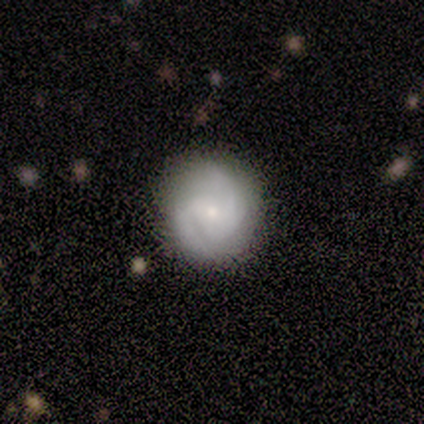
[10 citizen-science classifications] smooth_or_featured: featured or disk (p=0.70) [alt: smooth p=0.30]
disk_edge_on: no (p=1.00)
bar: weak (p=0.57) [alt: no p=0.43]
has_spiral_arms: yes (p=0.86) [alt: no p=0.14]
spiral_winding: tight (p=0.67) [alt: medium p=0.33]
spiral_arm_count: 2 (p=0.83) [alt: can't tell p=0.17]
bulge_size: small (p=0.43) [alt: moderate p=0.29]
merging: none (p=0.90) [alt: minor disturbance p=0.10]